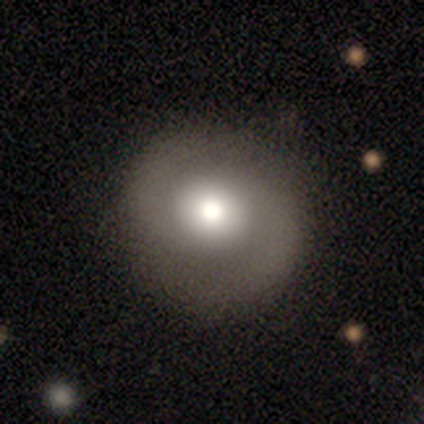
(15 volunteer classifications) A featured or disk galaxy (47%) with no bar (100%), 2 (100%) medium (50%) spiral arms (86%) and a large central bulge (57%). Merging: none (69%).